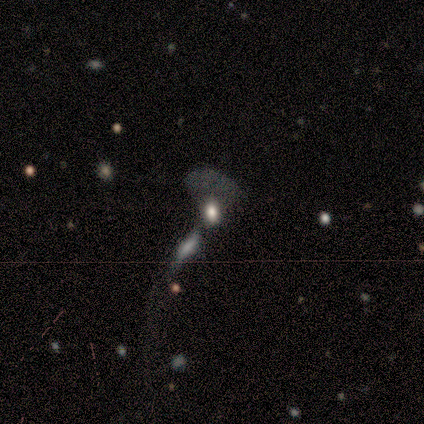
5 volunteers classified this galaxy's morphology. Volunteers were most divided on "merging": none: 50%, minor disturbance: 25%, merger: 25%, major disturbance: 0%. More confident: how rounded — in between (67%); smooth or featured — smooth (60%).